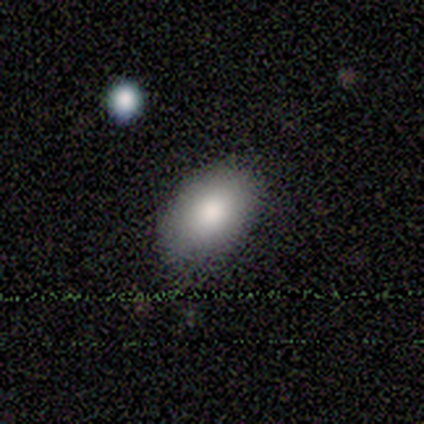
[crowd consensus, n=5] Overall: smooth (100%). How rounded: in between (100%). Merging: none (80%).